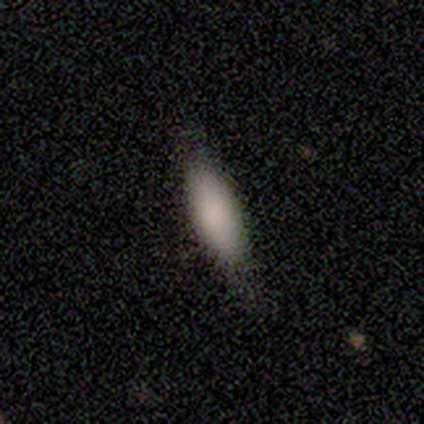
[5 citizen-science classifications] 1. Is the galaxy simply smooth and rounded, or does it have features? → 100% smooth, 0% featured or disk, 0% star or artifact.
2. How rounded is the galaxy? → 60% in between, 40% cigar-shaped, 0% round.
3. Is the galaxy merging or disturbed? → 80% none, 20% minor disturbance, 0% major disturbance, 0% merger.